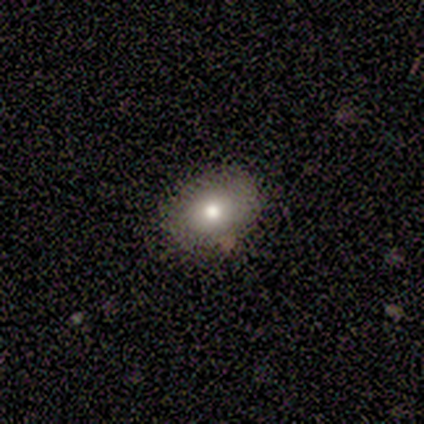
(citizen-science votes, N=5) Smooth or featured?
  - smooth: 40% * (tied)
  - star or artifact: 40% * (tied)
  - featured or disk: 20%
How rounded?
  - in between: 100% *
  - round: 0%
  - cigar-shaped: 0%
Merging?
  - none: 67% *
  - minor disturbance: 33%
  - major disturbance: 0%
  - merger: 0%